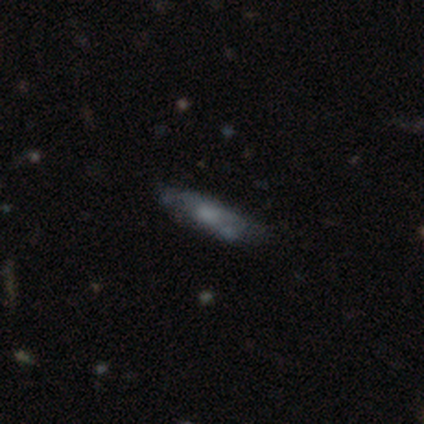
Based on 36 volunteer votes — Overall: smooth (50%; featured or disk 39%). How rounded: cigar-shaped (67%; in between 33%). Merging: none (44%, tied with minor disturbance).